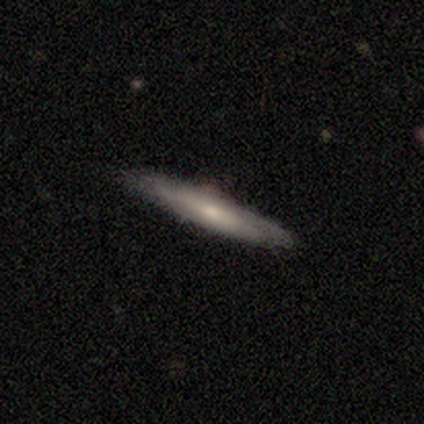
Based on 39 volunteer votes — This is likely a featured or disk galaxy (67%). It is clearly viewed edge-on (81%). Edge-on bulge: likely rounded (62%). Merging: clearly none (89%).